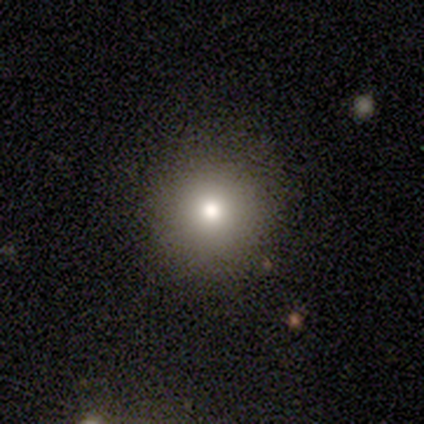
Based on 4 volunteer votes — Smooth or featured? 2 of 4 (50%, tied with star or artifact) said smooth. How rounded? 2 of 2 (100%) said round. Merging? 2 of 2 (100%) said none.